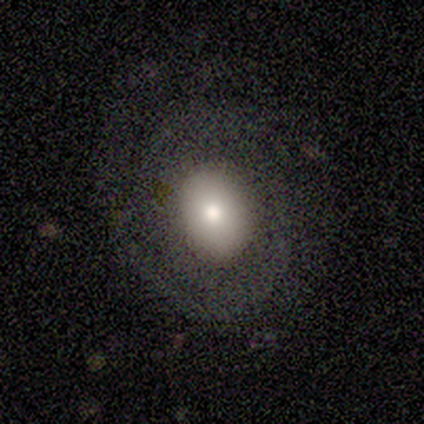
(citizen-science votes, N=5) A smooth galaxy with no disk features (60%) that is in between round and cigar-shaped (67%). Merging: major disturbance (80%).